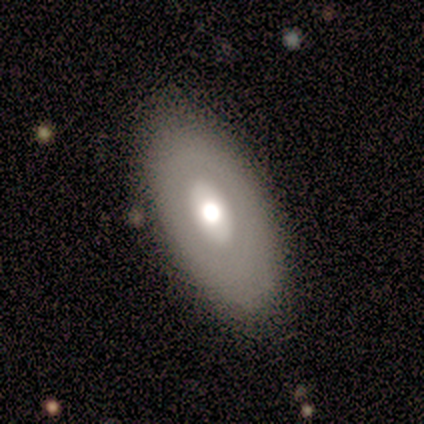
Volunteers were most divided on "smooth or featured": smooth: 60%, featured or disk: 40%, star or artifact: 0%. More confident: how rounded — in between (100%); merging — none (60%).